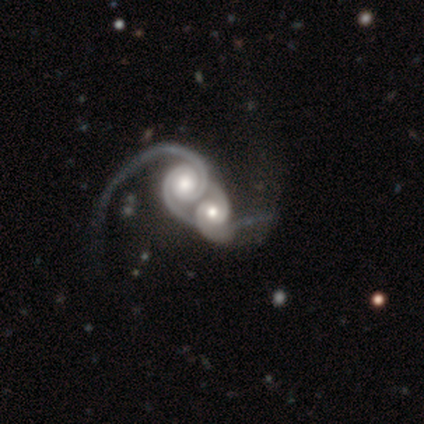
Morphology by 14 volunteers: Smooth or featured?
  - featured or disk: 100% *
  - smooth: 0%
  - star or artifact: 0%
Edge-on disk?
  - no: 100% *
  - yes: 0%
Bar?
  - no: 86% *
  - strong: 7%
  - weak: 7%
Spiral arms?
  - yes: 100% *
  - no: 0%
Spiral winding?
  - tight: 50% * (tied)
  - medium: 50% * (tied)
  - loose: 0%
Spiral arm count?
  - 2: 86% *
  - 4: 7%
  - can't tell: 7%
  - 1: 0%
  - 3: 0%
  - more than 4: 0%
Bulge size?
  - moderate: 57% *
  - small: 21%
  - large: 14%
  - dominant: 7%
  - none: 0%
Merging?
  - merger: 100% *
  - none: 0%
  - minor disturbance: 0%
  - major disturbance: 0%